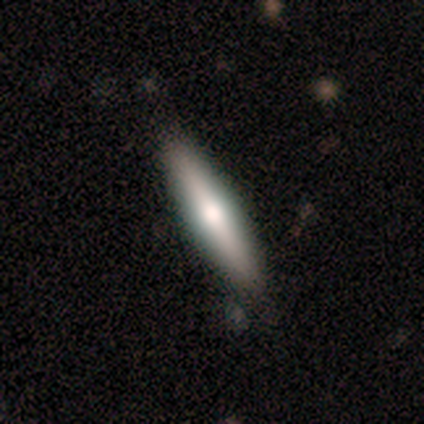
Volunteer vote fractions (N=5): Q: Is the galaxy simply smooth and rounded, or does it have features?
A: featured or disk — 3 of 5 (60%).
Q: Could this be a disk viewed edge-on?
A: yes — 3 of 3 (100%).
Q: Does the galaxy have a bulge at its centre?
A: rounded — 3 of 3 (100%).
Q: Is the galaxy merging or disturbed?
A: none — 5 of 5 (100%).